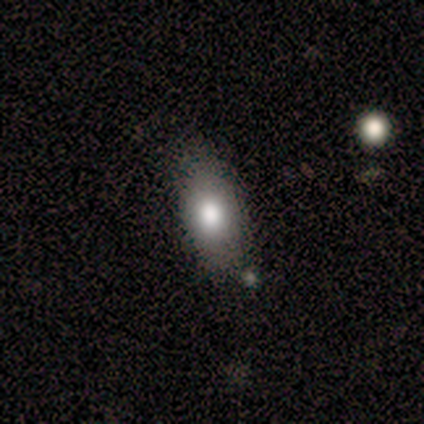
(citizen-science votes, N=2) This is clearly a smooth galaxy (100%). How rounded: clearly in between (100%). Merging: possibly none (50%, tied with minor disturbance).